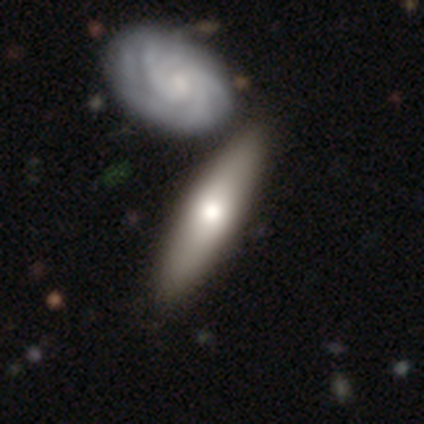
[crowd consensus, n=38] A featured or disk galaxy (50%) viewed edge-on (68%) with a rounded central bulge (92%). Merging: none (52%).